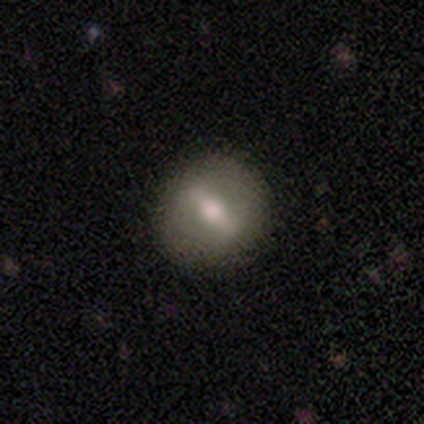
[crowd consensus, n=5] This appears to be a featured or disk galaxy (60%) with a strong bar (100%), no spiral arms (100%) and a moderate central bulge (100%). Merging: none (100%).